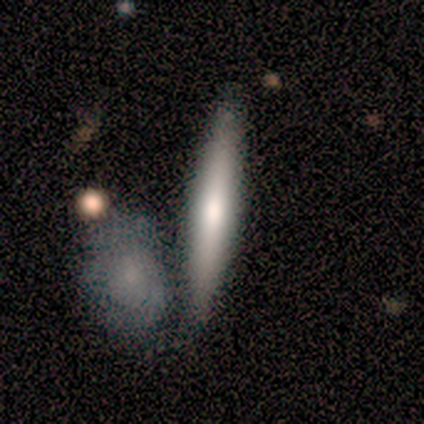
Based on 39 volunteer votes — A smooth galaxy with no disk features (62%) that is cigar-shaped (96%). Merging: none (63%).